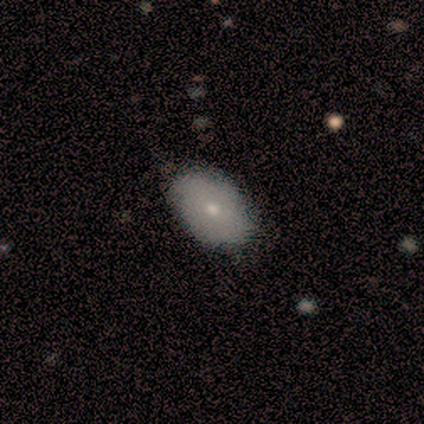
smooth_or_featured: smooth (p=0.83) [alt: featured or disk p=0.17]
how_rounded: in between (p=0.80) [alt: round p=0.20]
merging: none (p=0.50) [tied with: minor disturbance p=0.50]